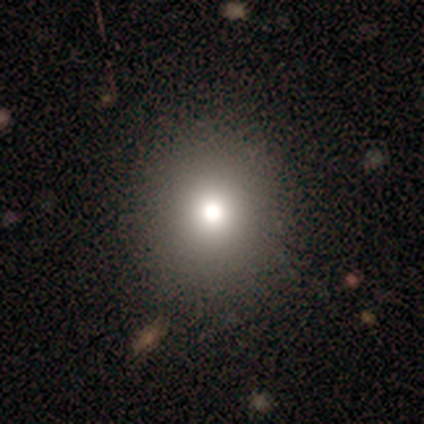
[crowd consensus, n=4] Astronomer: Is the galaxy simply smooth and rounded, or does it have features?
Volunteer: smooth — 75%.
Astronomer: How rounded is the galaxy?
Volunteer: round — 100%.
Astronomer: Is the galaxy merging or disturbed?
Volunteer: none — 75%.